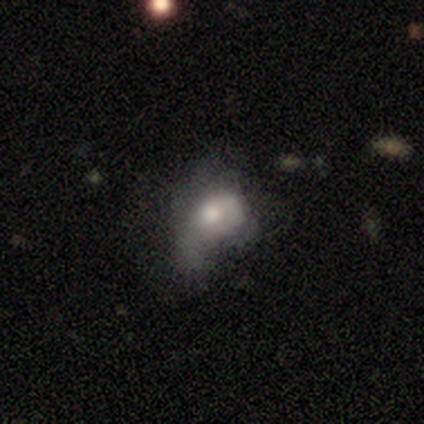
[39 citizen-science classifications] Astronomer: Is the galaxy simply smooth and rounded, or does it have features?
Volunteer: smooth — 54% (runner-up: featured or disk, 33%).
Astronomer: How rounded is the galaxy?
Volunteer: in between — 81%.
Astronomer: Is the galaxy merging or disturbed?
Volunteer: major disturbance — 62%.